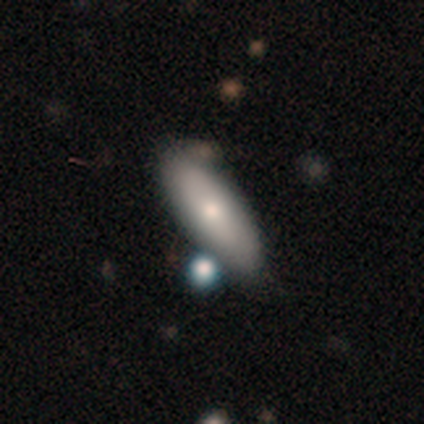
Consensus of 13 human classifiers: Overall: smooth (46%; featured or disk 38%). How rounded: in between (83%). Merging: none (64%; minor disturbance 27%).